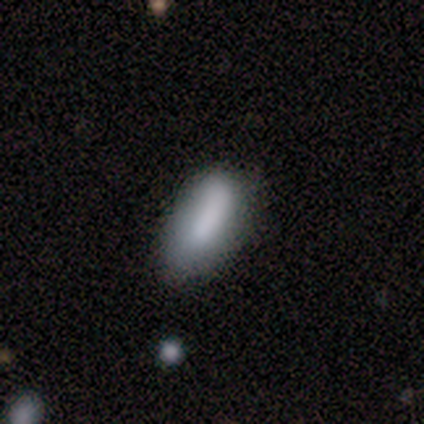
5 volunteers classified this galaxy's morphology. Smooth or featured: smooth — 80% (featured or disk — 20%)
How rounded: in between — 100%
Merging: none — 80% (minor disturbance — 20%)